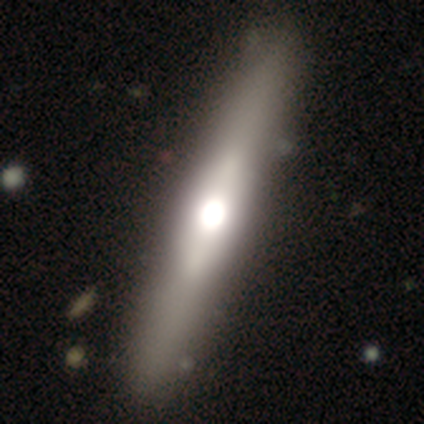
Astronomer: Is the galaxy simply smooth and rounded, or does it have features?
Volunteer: featured or disk — 60% (runner-up: smooth, 40%).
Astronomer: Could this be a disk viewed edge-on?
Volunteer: yes — 100%.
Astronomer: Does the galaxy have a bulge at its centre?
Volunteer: rounded — 100%.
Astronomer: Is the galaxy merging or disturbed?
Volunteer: none — 100%.